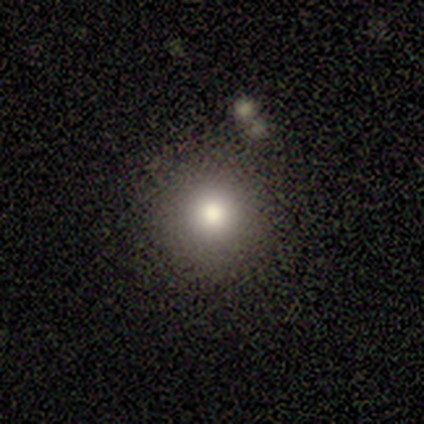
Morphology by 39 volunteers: Smooth or featured: smooth — 72% (star or artifact — 21%)
How rounded: round — 89% (in between — 11%)
Merging: none — 87% (minor disturbance — 6%)